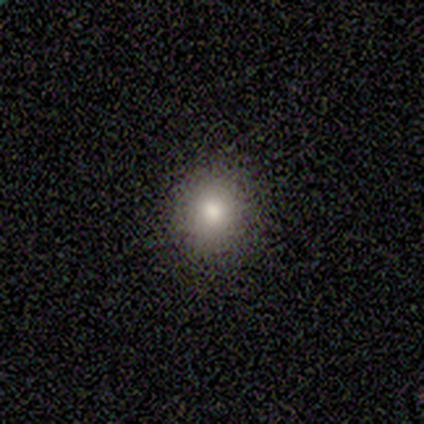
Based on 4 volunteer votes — Smooth or featured? 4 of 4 (100%) said smooth. How rounded? 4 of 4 (100%) said round. Merging? 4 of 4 (100%) said none.